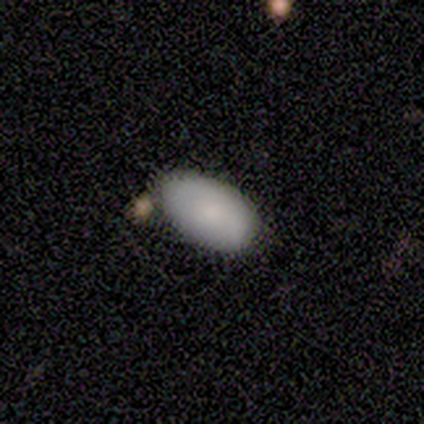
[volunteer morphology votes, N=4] type=smooth (100%); roundness=in between (100%); merging=none (100%).